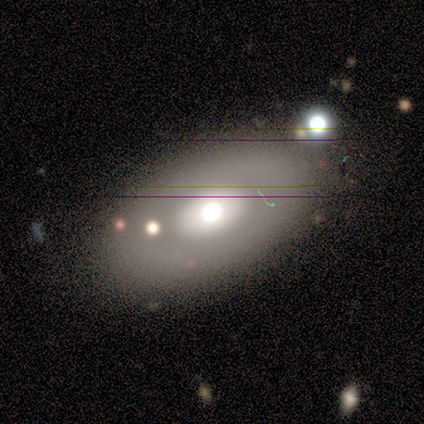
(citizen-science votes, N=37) A featured or disk galaxy (49%) with no bar (83%), no spiral arms (100%) and a large central bulge (50%). Merging: none (85%).